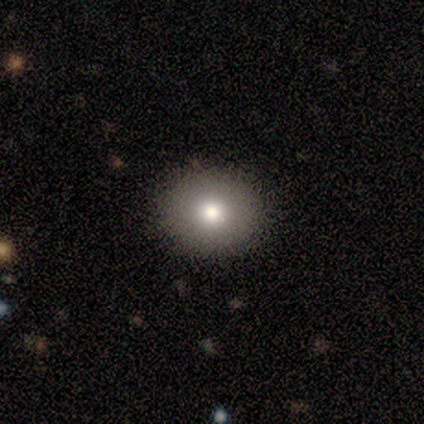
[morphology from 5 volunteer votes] smooth-or-featured: smooth: 80% | featured or disk: 20% | star or artifact: 0%
  how-rounded: in between: 75% | round: 25% | cigar-shaped: 0%
  merging: none: 100% | minor disturbance: 0% | major disturbance: 0% | merger: 0%